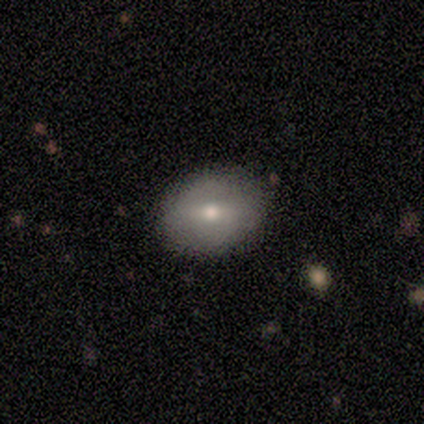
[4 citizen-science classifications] Smooth or featured? smooth (75%)
How rounded? round (67%)
Merging? none (50%)